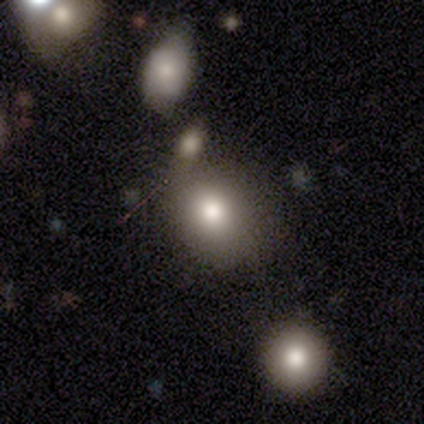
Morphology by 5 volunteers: smooth 80%, featured or disk 20%, star or artifact 0%. Down the decision tree: how rounded — round (100%); merging — none (80%).